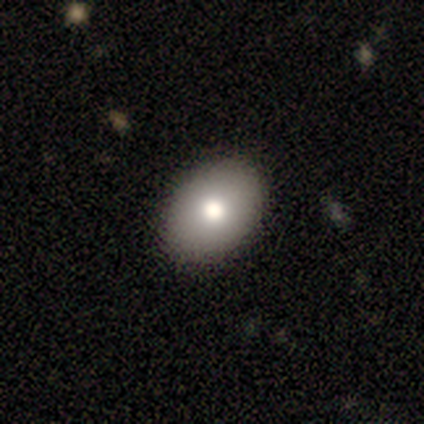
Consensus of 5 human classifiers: smooth 60%, featured or disk 20%, star or artifact 20%. Down the decision tree: how rounded — in between (100%); merging — none (75%).